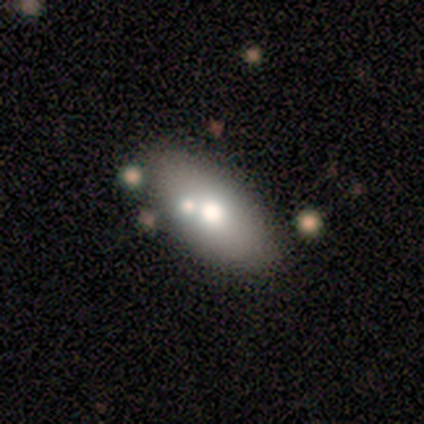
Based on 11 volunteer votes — Smooth or featured?
  - smooth: 73% *
  - featured or disk: 27%
  - star or artifact: 0%
How rounded?
  - in between: 88% *
  - cigar-shaped: 12%
  - round: 0%
Merging?
  - none: 64% *
  - minor disturbance: 27%
  - merger: 9%
  - major disturbance: 0%